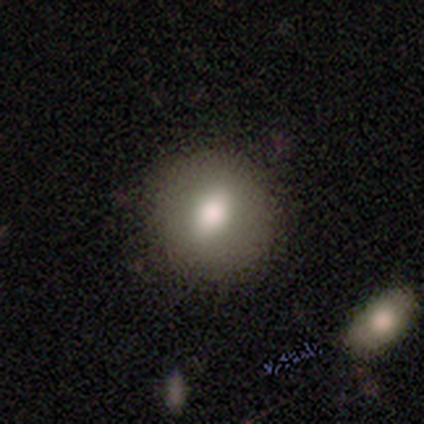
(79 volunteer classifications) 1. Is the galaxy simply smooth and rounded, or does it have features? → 77% smooth, 16% featured or disk, 6% star or artifact.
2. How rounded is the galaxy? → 75% round, 25% in between, 0% cigar-shaped.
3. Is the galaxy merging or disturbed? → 45% none, 7% merger, 3% minor disturbance, 0% major disturbance.